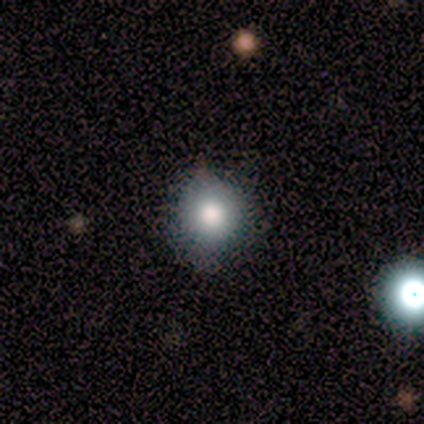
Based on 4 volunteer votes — Morphology: type=smooth (50%, tied with featured or disk); roundness=round (100%); merging=none (100%).